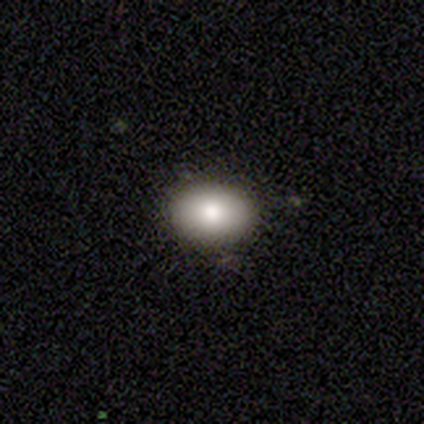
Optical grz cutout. It shows a smooth galaxy with no disk features (82%) that is in between round and cigar-shaped (97%). Merging: none (92%).